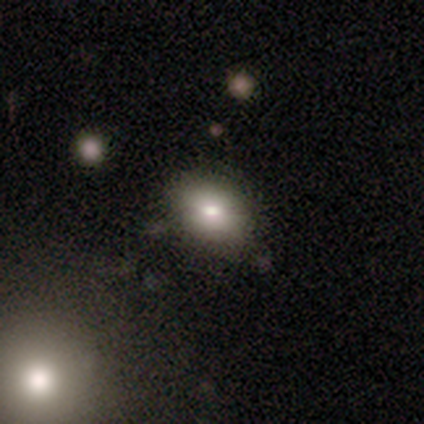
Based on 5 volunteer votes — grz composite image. It shows a smooth galaxy with no disk features (100%) that is in between round and cigar-shaped (80%). Merging: none (40%, tied with minor disturbance).